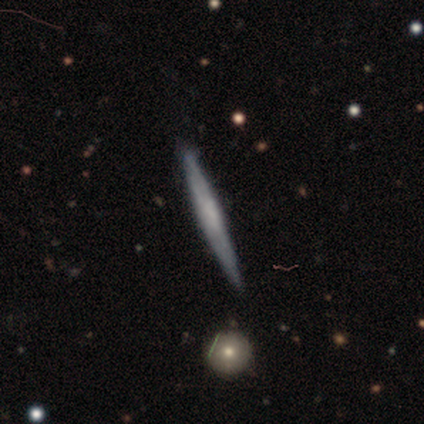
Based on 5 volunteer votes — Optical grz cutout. It shows a featured or disk galaxy (60%) viewed edge-on (100%) with a boxy central bulge (67%). Merging: none (100%).